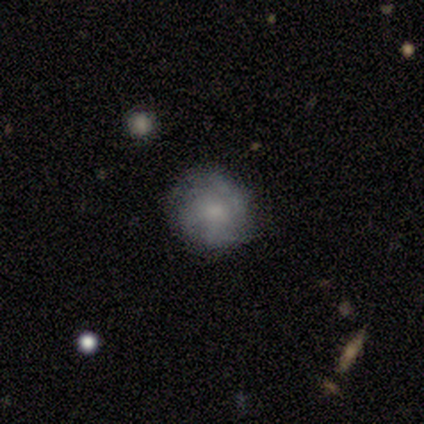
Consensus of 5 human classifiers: This appears to be a smooth galaxy with no disk features (60%) that is round (100%). Merging: none (80%).